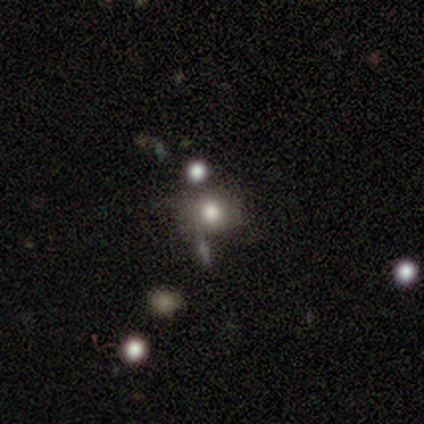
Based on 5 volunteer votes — Smooth or featured: featured or disk — 60% (smooth — 40%)
Edge-on disk: no — 100%
Bar: no — 100%
Spiral arms: no — 100%
Bulge size: large — 67% (small — 33%)
Merging: none — 80% (merger — 20%)